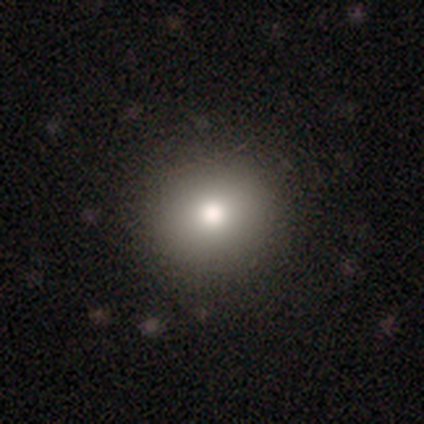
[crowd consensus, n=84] Smooth or featured?
  - smooth: 81% *
  - star or artifact: 15%
  - featured or disk: 4%
How rounded?
  - round: 85% *
  - in between: 15%
  - cigar-shaped: 0%
Merging?
  - none: 94% *
  - minor disturbance: 4%
  - merger: 1%
  - major disturbance: 0%